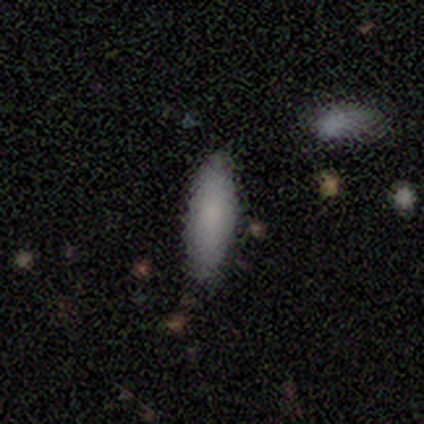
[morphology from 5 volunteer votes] Q: Smooth or featured?
A: smooth (80%); runner-up: featured or disk (20%)
Q: How rounded?
A: in between (75%); runner-up: cigar-shaped (25%)
Q: Merging?
A: none (100%)